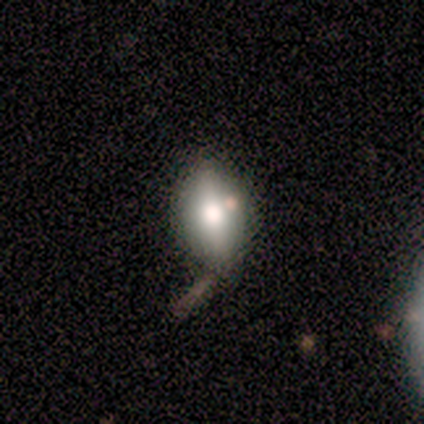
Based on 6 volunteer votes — A smooth galaxy with no disk features (67%) that is in between round and cigar-shaped (100%). Merging: none (50%).